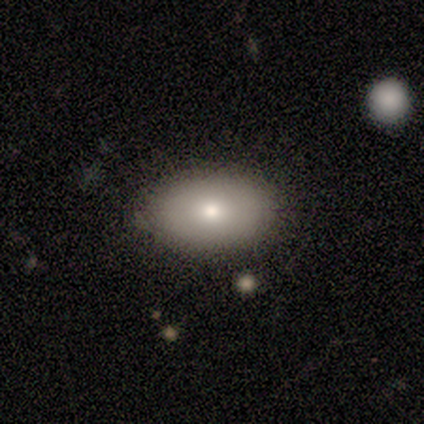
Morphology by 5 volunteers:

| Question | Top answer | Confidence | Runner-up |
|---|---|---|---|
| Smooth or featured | smooth | 60% | featured or disk (40%) |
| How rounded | in between | 100% | — |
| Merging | none | 80% | minor disturbance (20%) |